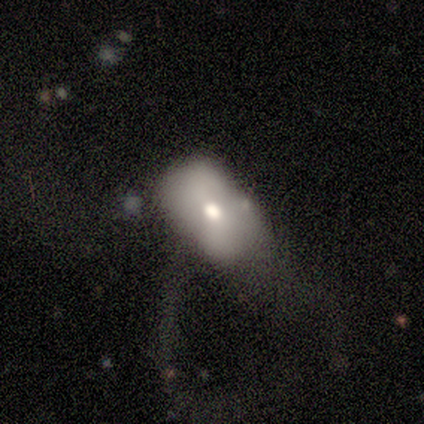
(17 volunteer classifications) Morphology: type=smooth (65%); roundness=in between (82%); merging=major disturbance (56%).